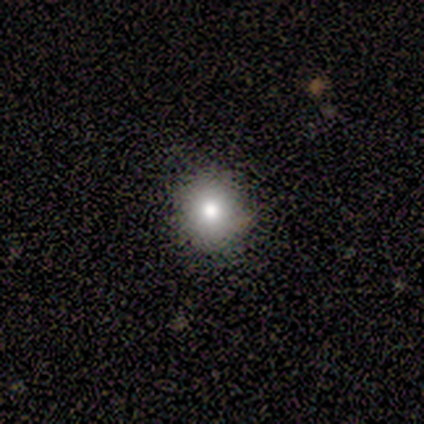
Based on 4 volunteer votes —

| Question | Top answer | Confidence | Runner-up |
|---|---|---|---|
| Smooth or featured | smooth | 75% | featured or disk (25%) |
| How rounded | round | 100% | — |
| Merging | none | 100% | — |